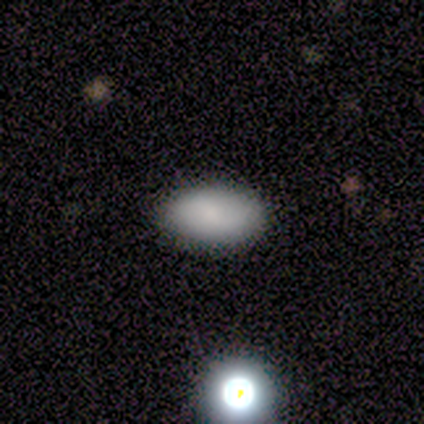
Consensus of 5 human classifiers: A smooth galaxy with no disk features (60%) that is in between round and cigar-shaped (100%). Merging: none (100%).